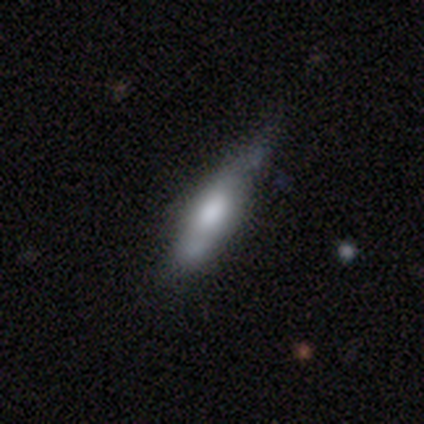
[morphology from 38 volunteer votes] A smooth galaxy with no disk features (63%) that is cigar-shaped (58%). Merging: none (62%).